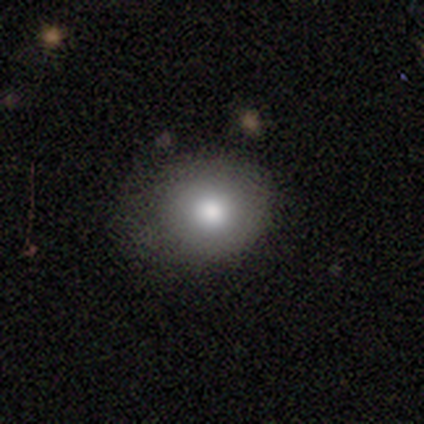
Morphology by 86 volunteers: Smooth or featured?
  - smooth: 72% *
  - featured or disk: 19%
  - star or artifact: 9%
How rounded?
  - round: 82% *
  - in between: 16%
  - cigar-shaped: 2%
Merging?
  - none: 69% *
  - minor disturbance: 21%
  - major disturbance: 10%
  - merger: 0%